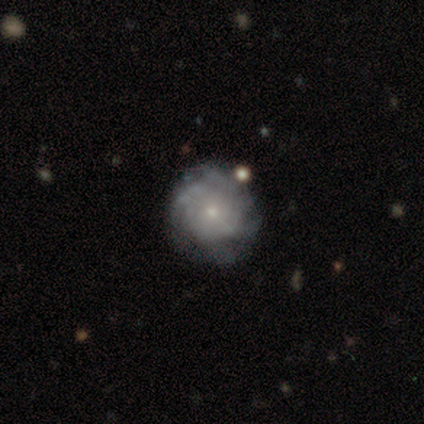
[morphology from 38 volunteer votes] type=featured or disk (63%); edge-on=no (96%); bar=no (83%); spiral arms=yes (74%); winding=tight (71%); arm count=can't tell (53%); bulge=small (78%); merging=none (63%).